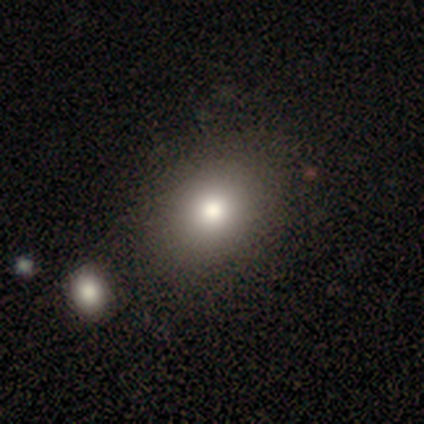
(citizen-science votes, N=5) Q: Smooth or featured?
A: smooth (60%); runner-up: featured or disk (40%)
Q: How rounded?
A: round (100%)
Q: Merging?
A: none (60%); runner-up: merger (40%)